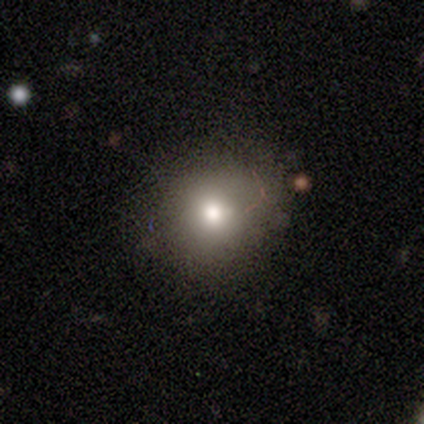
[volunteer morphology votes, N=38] Overall: smooth (82%). How rounded: round (90%). Merging: none (77%).